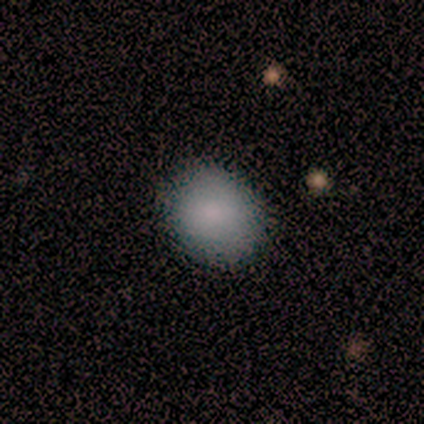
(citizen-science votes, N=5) Overall: smooth (60%; featured or disk 40%). How rounded: round (100%). Merging: none (100%).